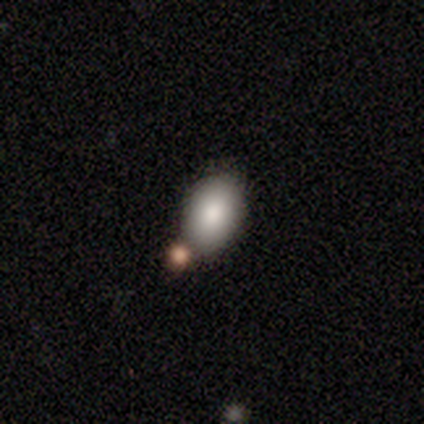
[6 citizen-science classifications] smooth_or_featured: smooth (p=1.00)
how_rounded: in between (p=0.83) [alt: round p=0.17]
merging: none (p=0.83) [alt: minor disturbance p=0.17]